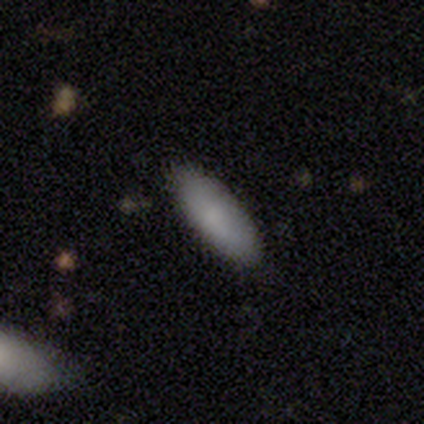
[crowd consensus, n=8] smooth-or-featured: smooth: 88% | featured or disk: 12% | star or artifact: 0%
  how-rounded: in between: 86% | cigar-shaped: 14% | round: 0%
  merging: none: 100% | minor disturbance: 0% | major disturbance: 0% | merger: 0%